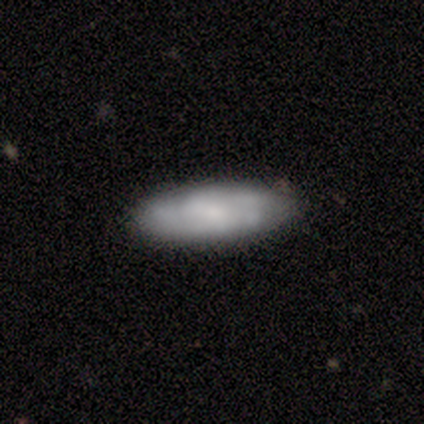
smooth-or-featured: smooth: 53% | featured or disk: 47% | star or artifact: 0%
  how-rounded: in between: 60% | cigar-shaped: 40% | round: 0%
  merging: none: 76% | minor disturbance: 18% | major disturbance: 3% | merger: 3%